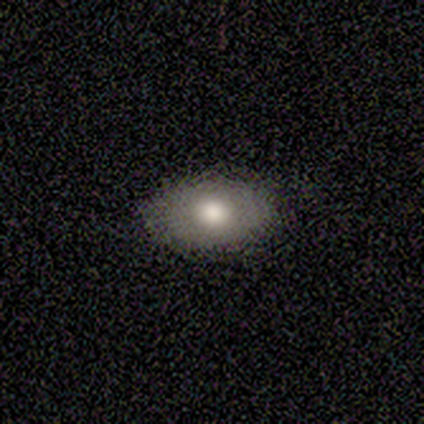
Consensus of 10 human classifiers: Smooth or featured?
  - smooth: 90% *
  - featured or disk: 10%
  - star or artifact: 0%
How rounded?
  - in between: 89% *
  - round: 11%
  - cigar-shaped: 0%
Merging?
  - none: 90% *
  - minor disturbance: 10%
  - major disturbance: 0%
  - merger: 0%